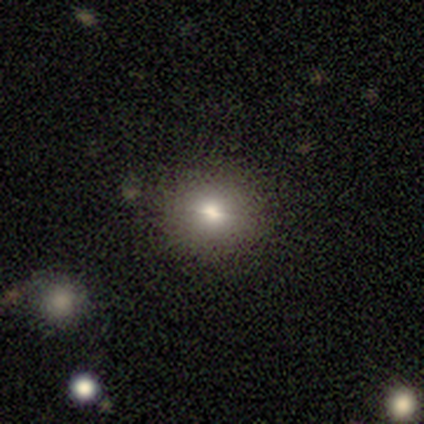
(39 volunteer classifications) Smooth or featured?
  - smooth: 51% *
  - star or artifact: 26%
  - featured or disk: 23%
How rounded?
  - round: 95% *
  - in between: 5%
  - cigar-shaped: 0%
Merging?
  - none: 93% *
  - minor disturbance: 7%
  - major disturbance: 0%
  - merger: 0%